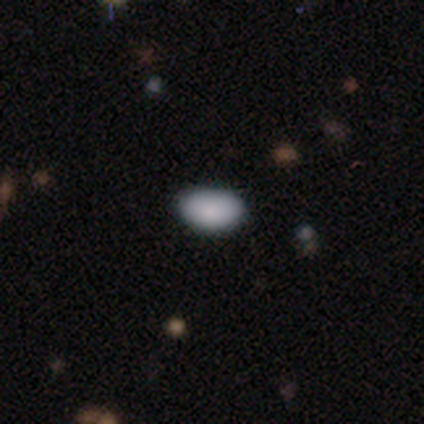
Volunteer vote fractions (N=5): Smooth or featured?
  - smooth: 100% *
  - featured or disk: 0%
  - star or artifact: 0%
How rounded?
  - in between: 100% *
  - round: 0%
  - cigar-shaped: 0%
Merging?
  - none: 80% *
  - minor disturbance: 20%
  - major disturbance: 0%
  - merger: 0%